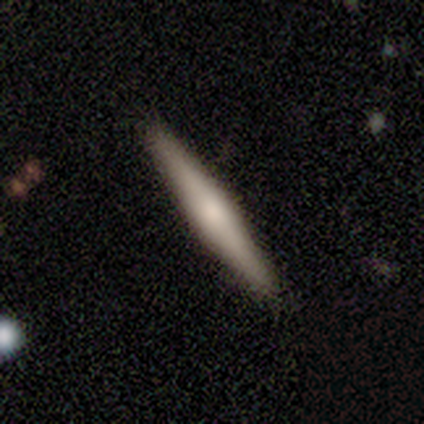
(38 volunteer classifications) Volunteers were most divided on "smooth or featured": featured or disk: 61%, smooth: 37%, star or artifact: 3%. More confident: edge-on disk — yes (96%); merging — none (84%); edge-on bulge — rounded (73%).